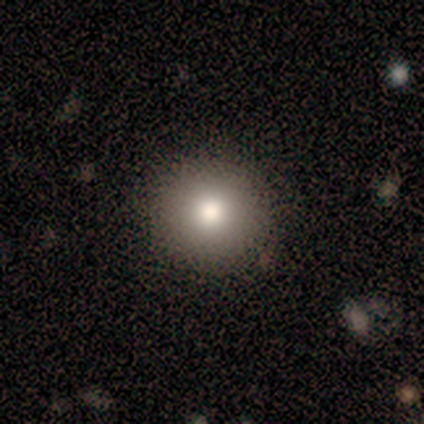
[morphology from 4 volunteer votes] Smooth or featured? 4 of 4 (100%) said smooth. How rounded? 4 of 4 (100%) said round. Merging? 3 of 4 (75%) said none.